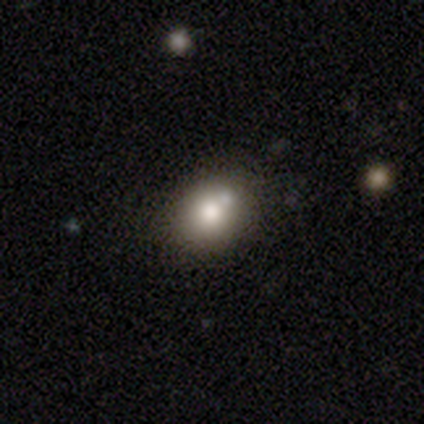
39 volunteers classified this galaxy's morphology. type=smooth (79%); roundness=round (74%); merging=none (61%).